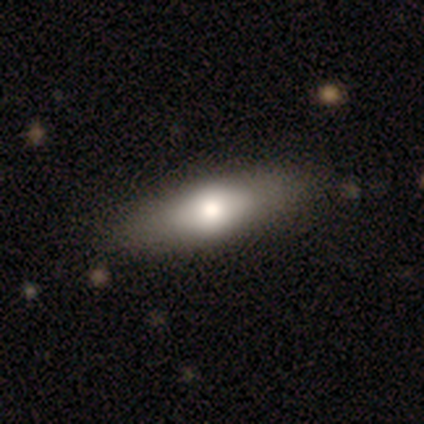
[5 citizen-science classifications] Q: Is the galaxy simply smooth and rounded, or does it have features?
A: smooth — 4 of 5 (80%).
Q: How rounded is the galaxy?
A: in between — 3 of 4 (75%).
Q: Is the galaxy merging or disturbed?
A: none — 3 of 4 (75%).